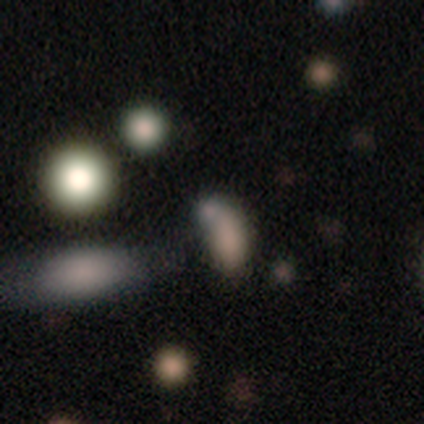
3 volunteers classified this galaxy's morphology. A smooth galaxy with no disk features (100%) that is in between round and cigar-shaped (100%). Merging: merger (67%).